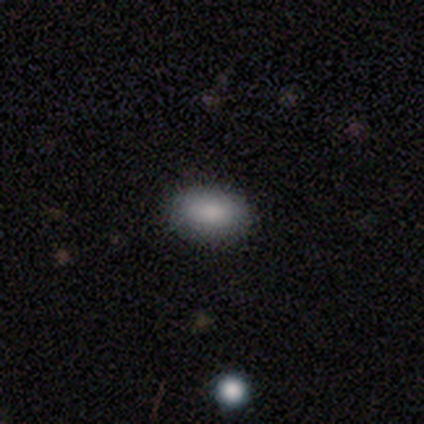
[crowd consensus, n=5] A smooth galaxy with no disk features (100%) that is in between round and cigar-shaped (100%).

Vote fractions:
- Smooth or featured? smooth: 100% / featured or disk: 0% / star or artifact: 0%
- How rounded? in between: 100% / round: 0% / cigar-shaped: 0%
- Merging? none: 100% / minor disturbance: 0% / major disturbance: 0% / merger: 0%